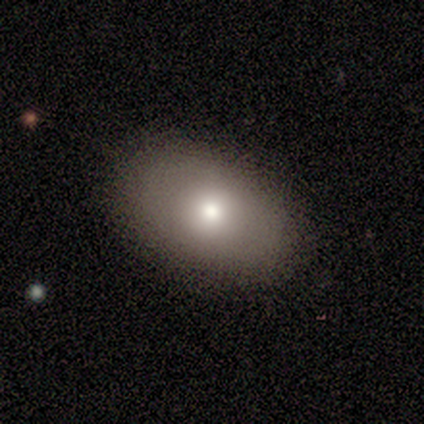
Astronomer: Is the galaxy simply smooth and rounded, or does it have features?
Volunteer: smooth — 60%.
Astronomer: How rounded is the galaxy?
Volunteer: in between — 100%.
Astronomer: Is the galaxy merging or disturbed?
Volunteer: none — 75%.